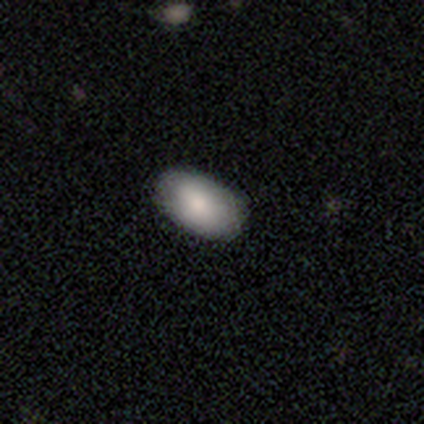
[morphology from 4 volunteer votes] type=smooth (100%); roundness=in between (100%); merging=none (100%).